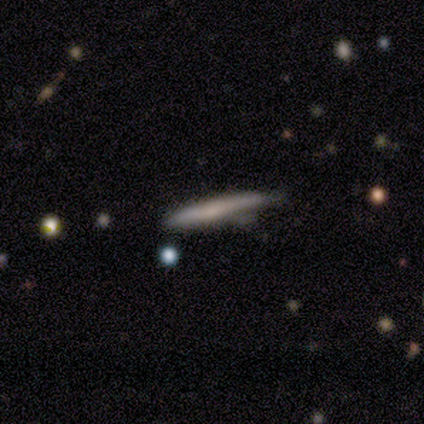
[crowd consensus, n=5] Smooth or featured: smooth — 60% (featured or disk — 40%)
How rounded: cigar-shaped — 100%
Merging: none — 80% (minor disturbance — 20%)